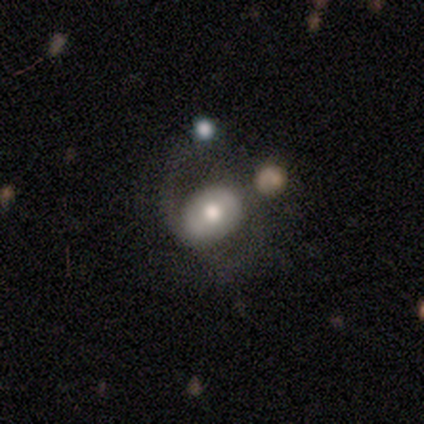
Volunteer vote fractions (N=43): featured or disk 70%, smooth 30%, star or artifact 0%. Down the decision tree: edge-on disk — no (100%); bar — no (47%); spiral arms — yes (83%); spiral arm count — 2 (84%); spiral winding — medium (48%); bulge size — moderate (77%); merging — none (47%).